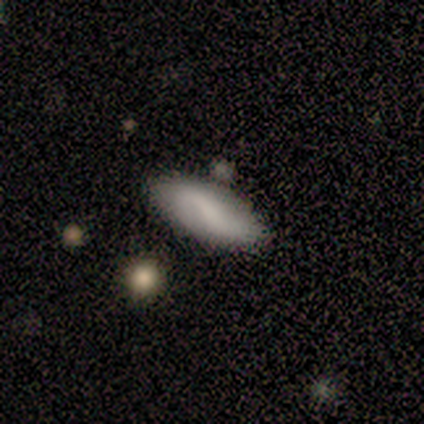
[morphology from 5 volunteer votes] type=smooth (60%); roundness=in between (100%); merging=none (80%).